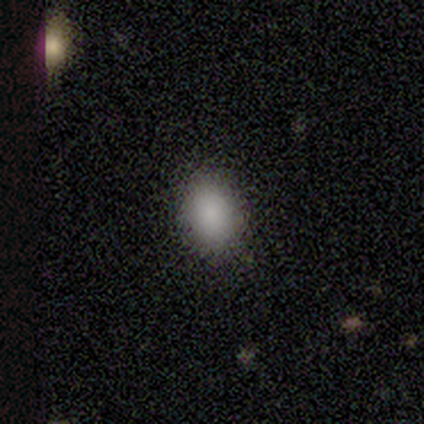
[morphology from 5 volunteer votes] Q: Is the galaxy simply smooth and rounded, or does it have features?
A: smooth — 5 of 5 (100%).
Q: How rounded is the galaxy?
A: in between — 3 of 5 (60%).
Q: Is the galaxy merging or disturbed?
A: none — 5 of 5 (100%).